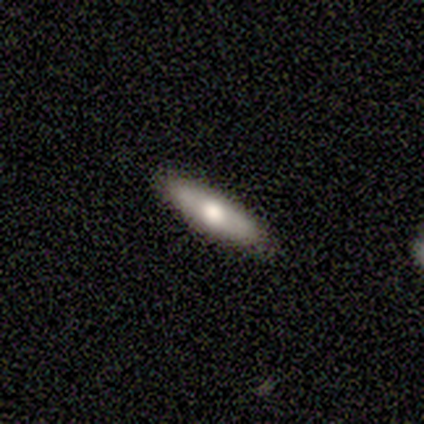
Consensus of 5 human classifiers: This appears to be a smooth galaxy with no disk features (80%) that is cigar-shaped (100%). Merging: none (75%).